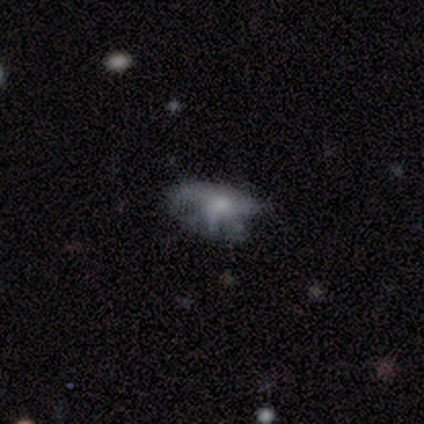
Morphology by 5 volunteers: Volunteers were most divided on "merging": minor disturbance: 50%, none: 25%, major disturbance: 25%, merger: 0%. More confident: edge-on disk — no (100%); bar — no (100%); smooth or featured — featured or disk (80%); spiral arms — no (75%); bulge size — small (75%).